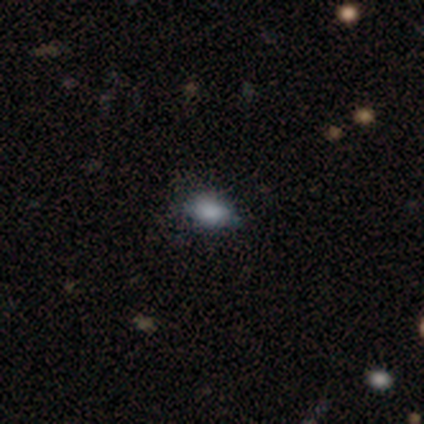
Smooth or featured? 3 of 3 (100%) said smooth. How rounded? 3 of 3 (100%) said in between. Merging? 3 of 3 (100%) said none.